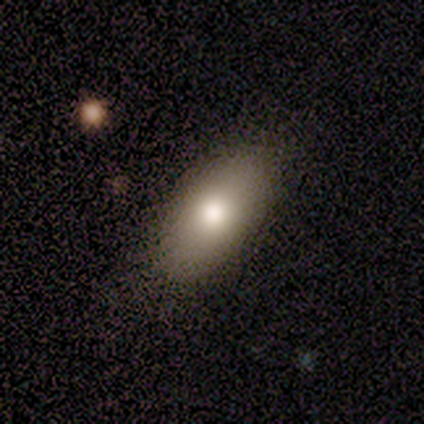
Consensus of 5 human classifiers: Volunteers were most divided on "merging": none: 80%, minor disturbance: 20%, major disturbance: 0%, merger: 0%. More confident: smooth or featured — smooth (100%); how rounded — in between (100%).